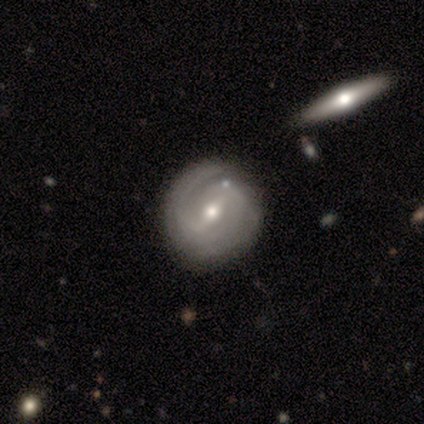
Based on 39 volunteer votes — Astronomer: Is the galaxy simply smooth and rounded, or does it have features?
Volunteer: featured or disk — 95%.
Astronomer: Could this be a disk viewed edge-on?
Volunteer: no — 97%.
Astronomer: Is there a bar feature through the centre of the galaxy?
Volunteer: weak — 47% (runner-up: strong, 42%).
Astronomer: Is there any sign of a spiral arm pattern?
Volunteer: yes — 92%.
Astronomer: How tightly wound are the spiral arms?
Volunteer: tight — 52% (runner-up: medium, 36%).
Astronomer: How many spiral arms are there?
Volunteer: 2 — 67%.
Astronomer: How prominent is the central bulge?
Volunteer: moderate — 50% (runner-up: small, 42%).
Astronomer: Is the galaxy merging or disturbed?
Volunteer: none — 58%.